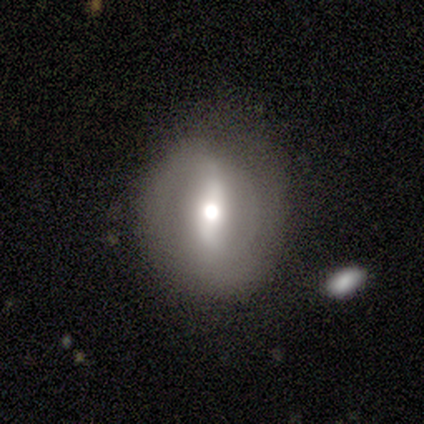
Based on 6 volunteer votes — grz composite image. It shows a featured or disk galaxy (83%) with a strong bar (80%), no spiral arms (60%) and a moderate central bulge (80%). Merging: none (50%).